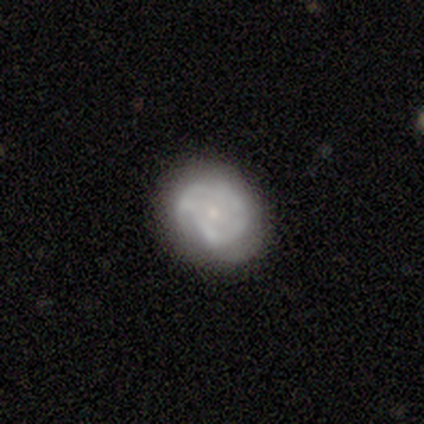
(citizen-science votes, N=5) Overall: featured or disk (60%; smooth 40%). Edge-on disk: no (67%; yes 33%). Bar: weak (50%, tied with no). Spiral arms: yes (100%). Spiral arm count: 1 (50%, tied with 3). Spiral winding: tight (50%, tied with medium). Bulge size: small (100%). Merging: none (60%; minor disturbance 20%).